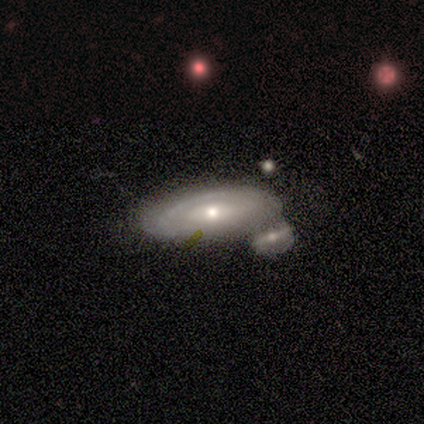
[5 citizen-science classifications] This is likely a smooth galaxy (60%). How rounded: clearly in between (100%). Merging: possibly merger (50%).